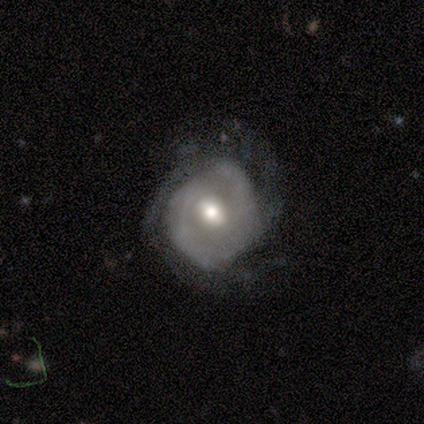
This is clearly a featured or disk galaxy (100%). It is clearly not viewed edge-on (100%). Bar: marginally weak (40%, tied with no). Spiral arm pattern: likely yes (60%). Spiral arm count: likely 2 (67%). Spiral winding: clearly tight (100%). Central bulge: clearly moderate (100%). Merging: likely minor disturbance (60%).